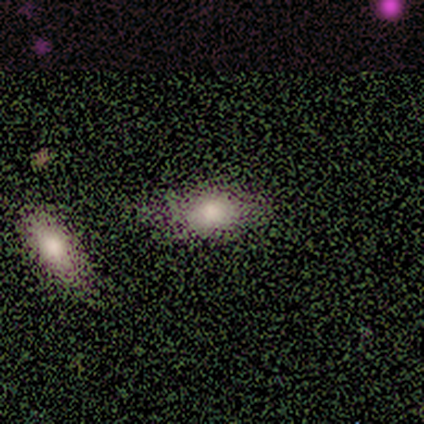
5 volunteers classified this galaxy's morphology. Volunteers were most divided on "smooth or featured": smooth: 60%, featured or disk: 20%, star or artifact: 20%. More confident: how rounded — in between (100%); merging — none (100%).